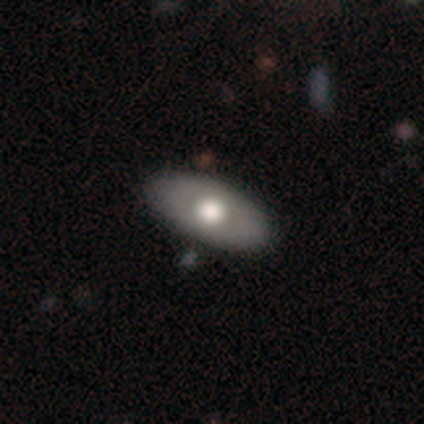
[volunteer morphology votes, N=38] smooth-or-featured: smooth: 58% | featured or disk: 39% | star or artifact: 3%
  how-rounded: in between: 86% | cigar-shaped: 14% | round: 0%
  merging: none: 89% | minor disturbance: 11% | major disturbance: 0% | merger: 0%